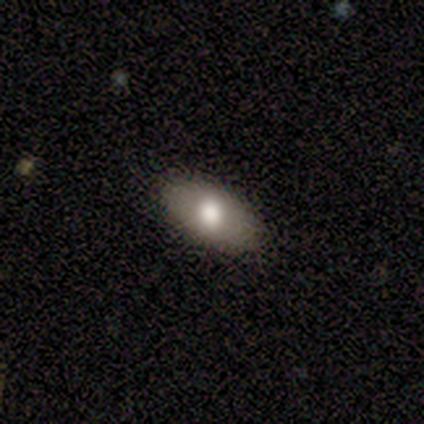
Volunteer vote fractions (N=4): Q: Smooth or featured?
A: smooth (50%); tied with: featured or disk (50%)
Q: How rounded?
A: in between (50%); tied with: cigar-shaped (50%)
Q: Merging?
A: none (100%)